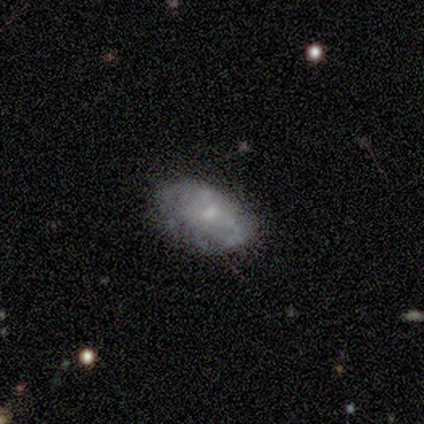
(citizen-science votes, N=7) Overall: featured or disk (71%). Edge-on disk: no (100%). Bar: no (80%). Spiral arms: no (60%; yes 40%). Bulge size: moderate (60%; small 20%). Merging: none (71%).